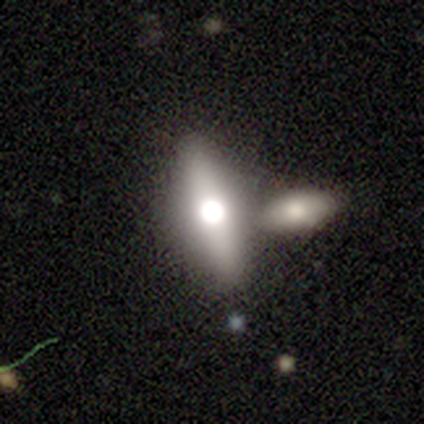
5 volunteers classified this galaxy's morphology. Smooth or featured? smooth (60%)
How rounded? in between (67%)
Merging? none (75%)